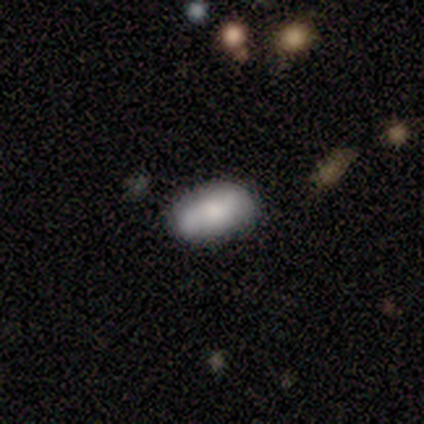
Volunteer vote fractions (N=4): This is clearly a smooth galaxy (100%). How rounded: clearly in between (100%). Merging: clearly none (100%).